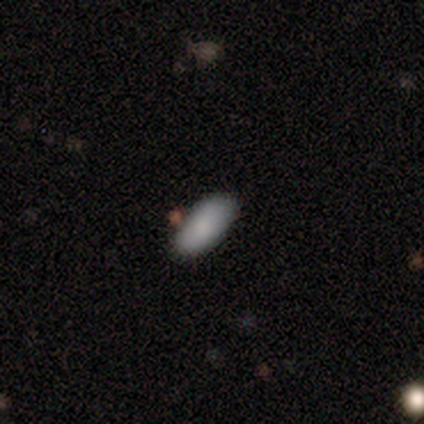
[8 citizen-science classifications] Volunteers were most divided on "merging": none: 88%, minor disturbance: 12%, major disturbance: 0%, merger: 0%. More confident: smooth or featured — smooth (100%); how rounded — in between (100%).